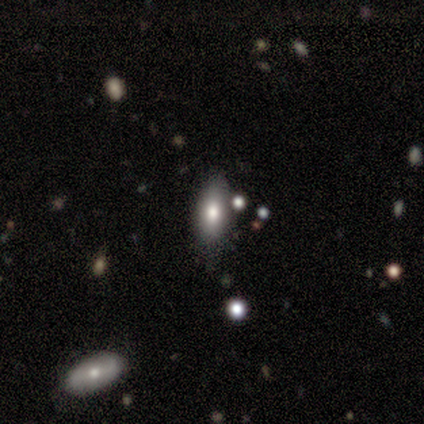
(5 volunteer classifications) This is marginally a smooth galaxy (40%, tied with featured or disk). How rounded: clearly in between (100%). Merging: likely none (75%).